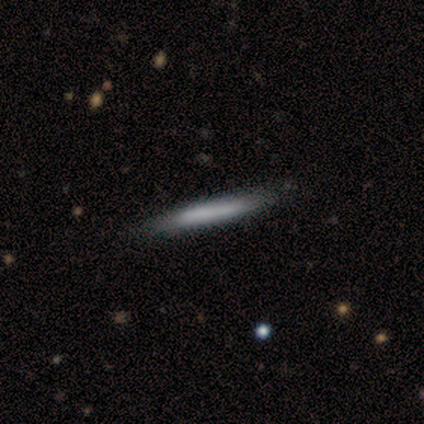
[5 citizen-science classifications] This is clearly a smooth galaxy (100%). How rounded: clearly cigar-shaped (100%). Merging: clearly none (100%).